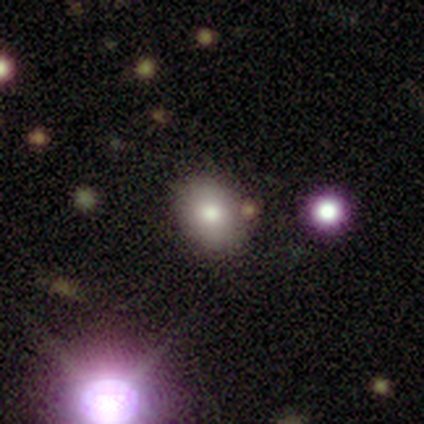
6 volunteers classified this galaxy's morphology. smooth 83%, star or artifact 17%, featured or disk 0%. Down the decision tree: how rounded — round (60%); merging — none (100%).